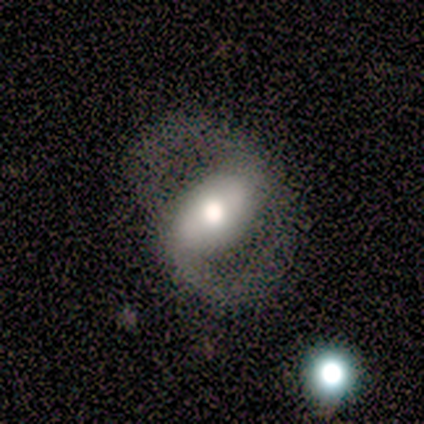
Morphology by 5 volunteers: A featured or disk galaxy (100%) with a strong bar (40%, tied with weak), 2 (100%) medium (50%) spiral arms (80%) and a large central bulge (80%).

Vote fractions:
- Smooth or featured? featured or disk: 100% / smooth: 0% / star or artifact: 0%
- Edge-on disk? no: 100% / yes: 0%
- Bar? strong: 40% (tied) / weak: 40% (tied) / no: 20%
- Spiral arms? yes: 80% / no: 20%
- Spiral winding? medium: 50% / tight: 25% / loose: 25%
- Spiral arm count? 2: 100% / 1: 0% / 3: 0% / 4: 0% / more than 4: 0% / can't tell: 0%
- Bulge size? large: 80% / moderate: 20% / dominant: 0% / small: 0% / none: 0%
- Merging? none: 60% / minor disturbance: 20% / major disturbance: 20% / merger: 0%